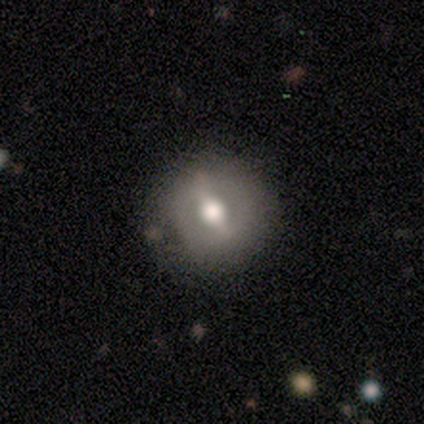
A featured or disk galaxy (100%) with a strong bar (50%), no spiral arms (100%) and a moderate central bulge (100%).

Vote fractions:
- Smooth or featured? featured or disk: 100% / smooth: 0% / star or artifact: 0%
- Edge-on disk? no: 100% / yes: 0%
- Bar? strong: 50% / weak: 25% / no: 25%
- Spiral arms? no: 100% / yes: 0%
- Bulge size? moderate: 100% / dominant: 0% / large: 0% / small: 0% / none: 0%
- Merging? none: 75% / minor disturbance: 25% / major disturbance: 0% / merger: 0%